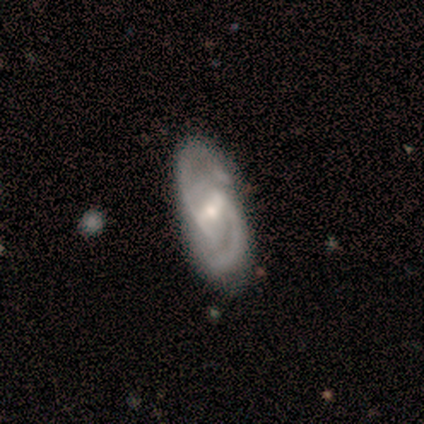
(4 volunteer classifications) Overall: featured or disk (100%). Edge-on disk: no (100%). Bar: strong (50%, tied with weak). Spiral arms: yes (100%). Spiral arm count: 2 (100%). Spiral winding: medium (100%). Bulge size: moderate (50%, tied with small). Merging: minor disturbance (75%).